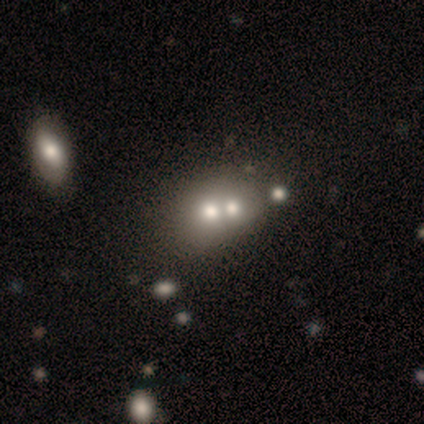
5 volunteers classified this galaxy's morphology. smooth 80%, star or artifact 20%, featured or disk 0%. Down the decision tree: how rounded — round (50%, tied with in between); merging — none (50%, tied with merger).